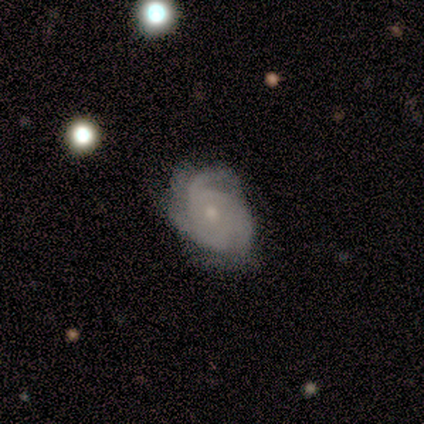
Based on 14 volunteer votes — smooth-or-featured: featured or disk: 86% | smooth: 14% | star or artifact: 0%
  disk-edge-on: no: 100% | yes: 0%
    bar: no: 83% | weak: 17% | strong: 0%
    has-spiral-arms: yes: 100% | no: 0%
      spiral-winding: medium: 42% | tight: 33% | loose: 25%
      spiral-arm-count: 3: 75% | 2: 8% | more than 4: 8% | can't tell: 8% | 1: 0% | 4: 0%
    bulge-size: moderate: 58% | small: 42% | dominant: 0% | large: 0% | none: 0%
  merging: none: 71% | minor disturbance: 21% | major disturbance: 7% | merger: 0%